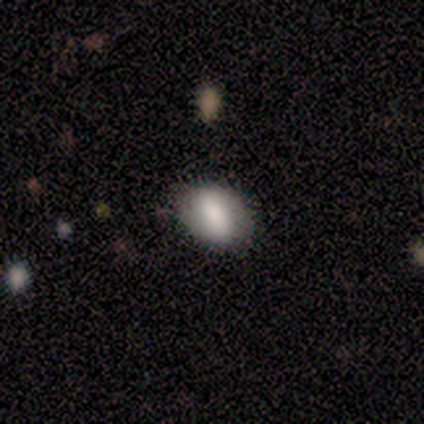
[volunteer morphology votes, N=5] A smooth galaxy with no disk features (80%) that is in between round and cigar-shaped (75%).

Vote fractions:
- Smooth or featured? smooth: 80% / featured or disk: 20% / star or artifact: 0%
- How rounded? in between: 75% / round: 25% / cigar-shaped: 0%
- Merging? none: 80% / major disturbance: 20% / minor disturbance: 0% / merger: 0%